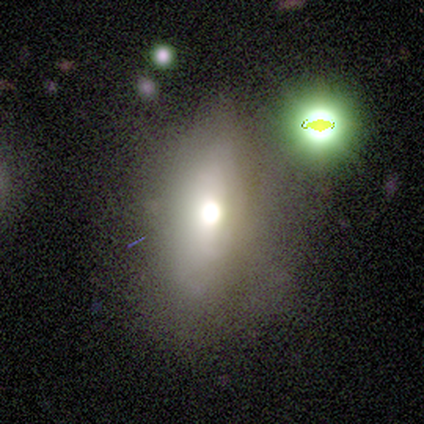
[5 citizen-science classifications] featured or disk 60%, smooth 20%, star or artifact 20%. Down the decision tree: edge-on disk — no (100%); bar — no (100%); spiral arms — no (100%); bulge size — moderate (67%); merging — minor disturbance (50%).